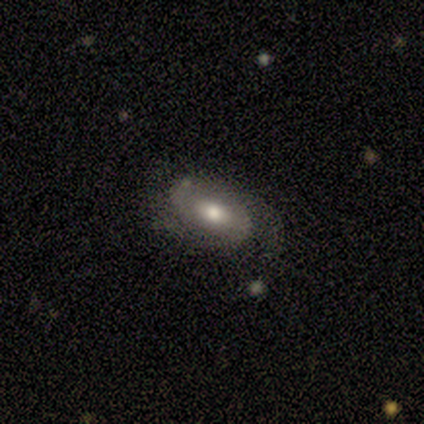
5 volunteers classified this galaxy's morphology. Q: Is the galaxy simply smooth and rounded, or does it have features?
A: featured or disk — 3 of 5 (60%).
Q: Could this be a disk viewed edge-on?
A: no — 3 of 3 (100%).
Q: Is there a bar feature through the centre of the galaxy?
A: no — 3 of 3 (100%).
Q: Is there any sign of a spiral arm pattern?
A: yes — 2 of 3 (67%).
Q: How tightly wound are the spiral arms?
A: tight — 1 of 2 (50%, tied with medium).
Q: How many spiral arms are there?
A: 2 — 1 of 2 (50%, tied with can't tell).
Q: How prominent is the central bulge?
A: moderate — 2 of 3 (67%).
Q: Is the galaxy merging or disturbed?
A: none — 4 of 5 (80%).